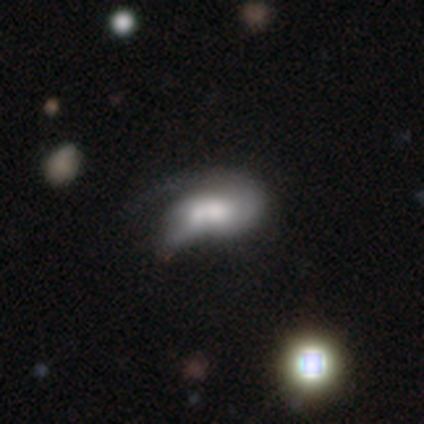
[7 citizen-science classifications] This appears to be a smooth galaxy with no disk features (57%) that is in between round and cigar-shaped (75%). Merging: merger (43%).